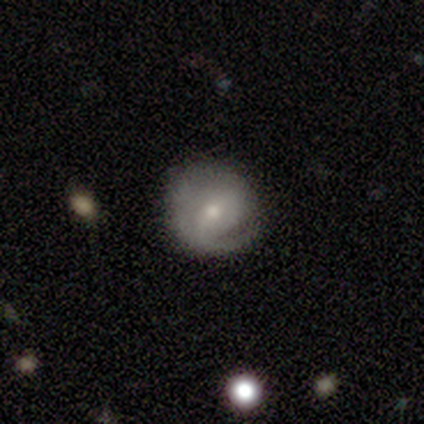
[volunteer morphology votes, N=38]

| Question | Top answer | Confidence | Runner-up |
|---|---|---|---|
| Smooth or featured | featured or disk | 71% | smooth (21%) |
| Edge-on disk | no | 96% | yes (4%) |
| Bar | weak | 50% | no (38%) |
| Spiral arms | yes | 58% | no (42%) |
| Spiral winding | tight | 53% | medium (33%) |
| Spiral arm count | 1 | 53% | can't tell (33%) |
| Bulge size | small | 58% | moderate (35%) |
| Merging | none | 60% | major disturbance (23%) |